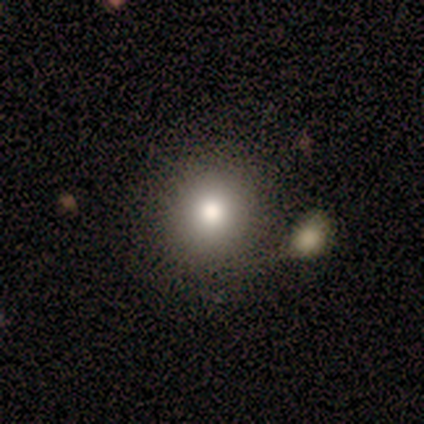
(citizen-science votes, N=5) Smooth or featured? 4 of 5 (80%) said smooth. How rounded? 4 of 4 (100%) said round. Merging? 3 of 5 (60%) said none.